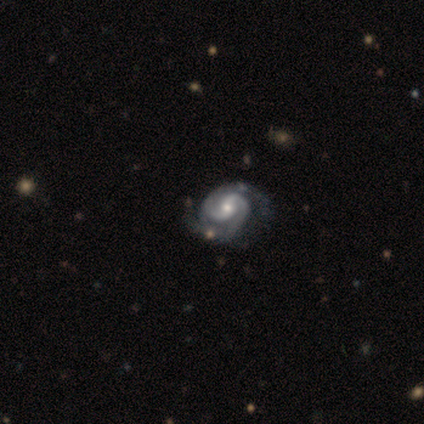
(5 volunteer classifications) Smooth or featured: featured or disk — 100%
Edge-on disk: no — 100%
Bar: strong — 60% (no — 40%)
Spiral arms: yes — 100%
Spiral winding: medium — 60% (tight — 40%)
Spiral arm count: 2 — 80% (3 — 20%)
Bulge size: moderate — 60% (small — 40%)
Merging: none — 80% (minor disturbance — 20%)